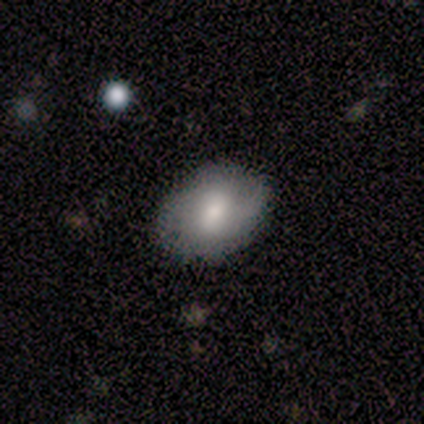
Morphology: type=smooth (100%); roundness=in between (60%); merging=none (100%).